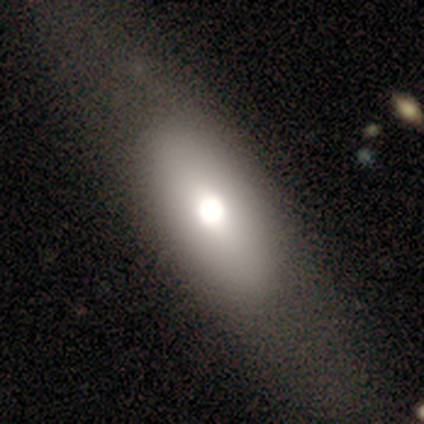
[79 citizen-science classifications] Volunteers were most divided on "merging": none: 36%, minor disturbance: 10%, major disturbance: 4%, merger: 1%. More confident: how rounded — in between (82%); smooth or featured — smooth (65%).